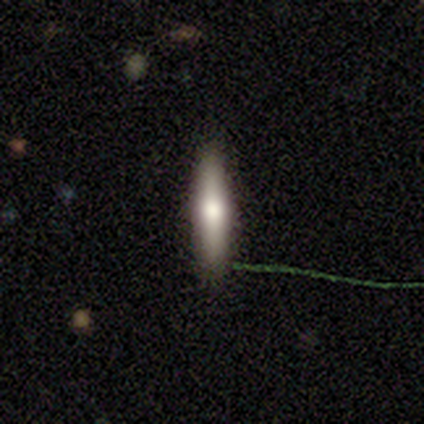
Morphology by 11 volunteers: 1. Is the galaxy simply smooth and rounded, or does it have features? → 64% smooth, 36% featured or disk, 0% star or artifact.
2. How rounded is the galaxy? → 100% cigar-shaped, 0% round, 0% in between.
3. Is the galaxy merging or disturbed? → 91% none, 9% minor disturbance, 0% major disturbance, 0% merger.